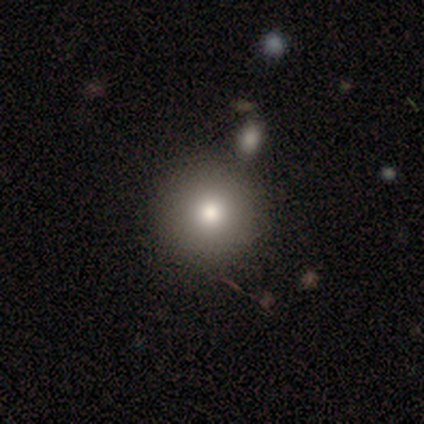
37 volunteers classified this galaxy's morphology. type=smooth (76%); roundness=round (100%); merging=none (46%).